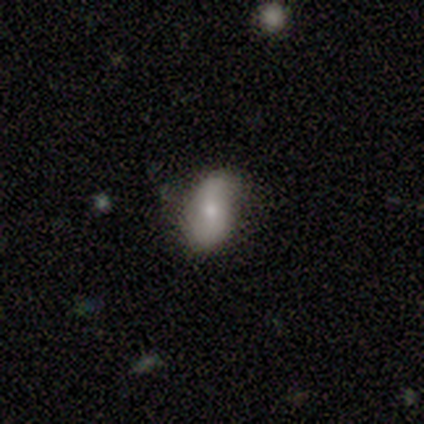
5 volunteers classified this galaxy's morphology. A smooth galaxy with no disk features (80%) that is in between round and cigar-shaped (100%). Merging: minor disturbance (60%).